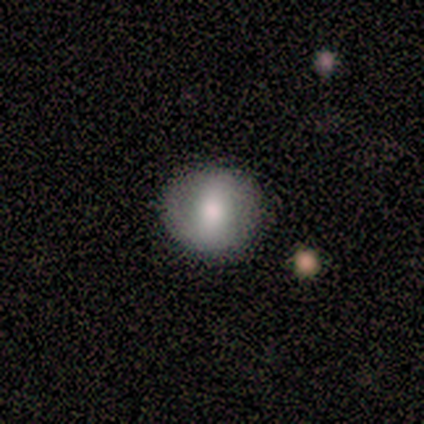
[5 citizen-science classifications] smooth_or_featured: smooth (p=0.80) [alt: featured or disk p=0.20]
how_rounded: round (p=1.00)
merging: none (p=1.00)